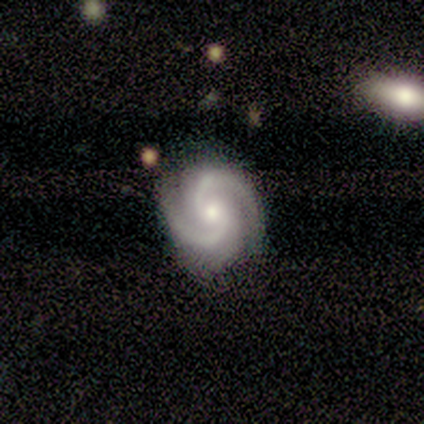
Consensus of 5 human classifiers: Smooth or featured? featured or disk (100%)
Edge-on disk? no (100%)
Bar? no (100%)
Spiral arms? yes (100%)
Spiral winding? medium (60%)
Spiral arm count? 2 (80%)
Bulge size? moderate (60%)
Merging? none (60%)